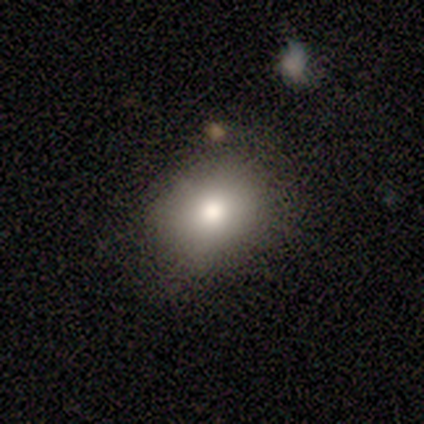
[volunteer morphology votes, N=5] Smooth or featured? 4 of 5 (80%) said smooth. How rounded? 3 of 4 (75%) said round. Merging? 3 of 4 (75%) said none.